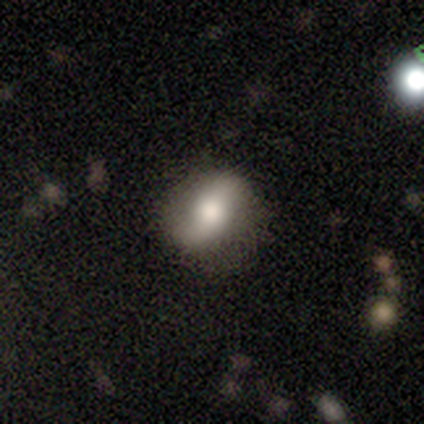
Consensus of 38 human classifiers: A featured or disk galaxy (58%) with no bar (43%), 2 (86%) loose (71%) spiral arms (67%) and a moderate central bulge (57%). Merging: none (75%).